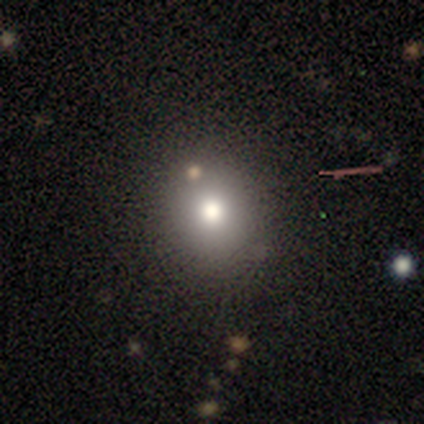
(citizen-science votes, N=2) smooth 50% (tied), featured or disk 50% (tied), star or artifact 0%. Down the decision tree: how rounded — in between (100%); merging — none (100%).